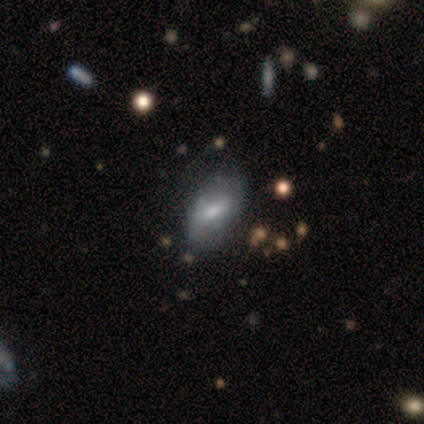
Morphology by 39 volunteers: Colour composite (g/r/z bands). It shows a featured or disk galaxy (54%) with a weak bar (50%), no spiral arms (61%) and a moderate central bulge (61%). Merging: minor disturbance (29%).